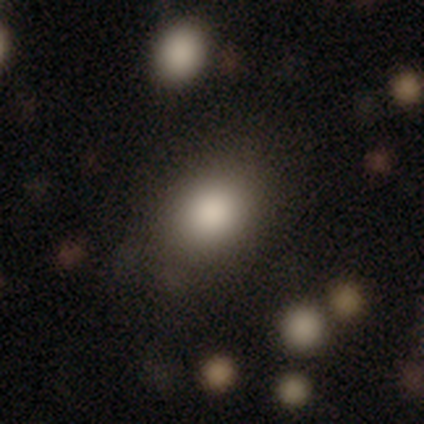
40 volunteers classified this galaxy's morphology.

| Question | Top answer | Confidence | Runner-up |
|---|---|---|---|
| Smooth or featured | smooth | 82% | star or artifact (12%) |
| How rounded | in between | 61% | round (39%) |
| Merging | none | 74% | minor disturbance (17%) |